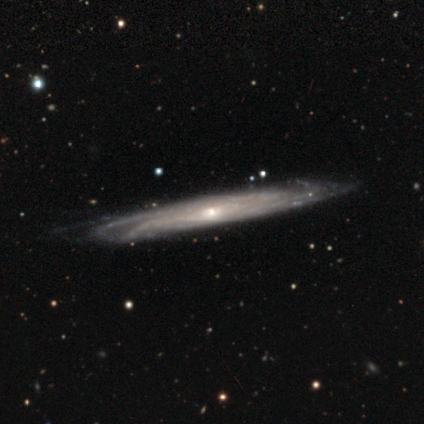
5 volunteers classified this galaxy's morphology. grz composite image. It shows a featured or disk galaxy (80%) viewed edge-on (50%, tied with no) with no central bulge (100%). Merging: none (60%).